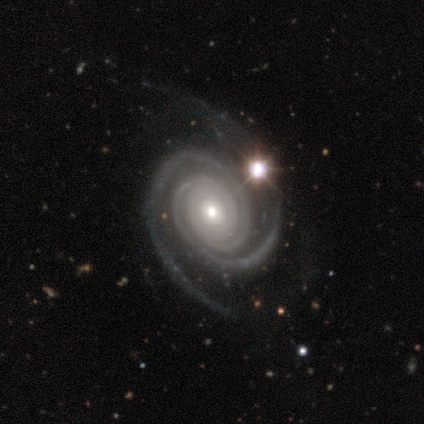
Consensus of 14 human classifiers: This is clearly a featured or disk galaxy (100%). It is clearly not viewed edge-on (93%). Bar: clearly no (85%). Spiral arm pattern: clearly yes (100%). Spiral arm count: clearly 2 (85%). Spiral winding: clearly tight (85%). Central bulge: possibly moderate (54%). Merging: possibly none (50%).